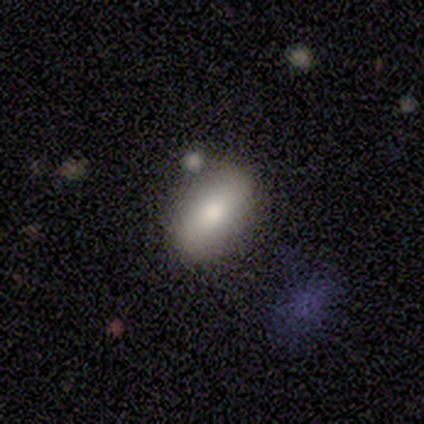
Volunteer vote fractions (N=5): This appears to be a smooth galaxy with no disk features (100%) that is in between round and cigar-shaped (80%). Merging: none (100%).